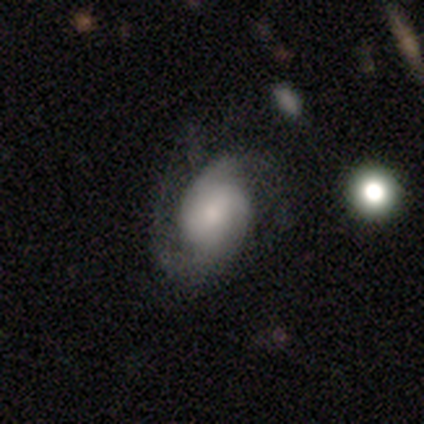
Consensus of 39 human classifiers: Overall: featured or disk (64%; smooth 26%). Edge-on disk: no (100%). Bar: no (68%). Spiral arms: yes (100%). Spiral arm count: 2 (60%; 1 20%). Spiral winding: medium (52%; loose 28%). Bulge size: small (52%; moderate 32%). Merging: none (51%; minor disturbance 29%).